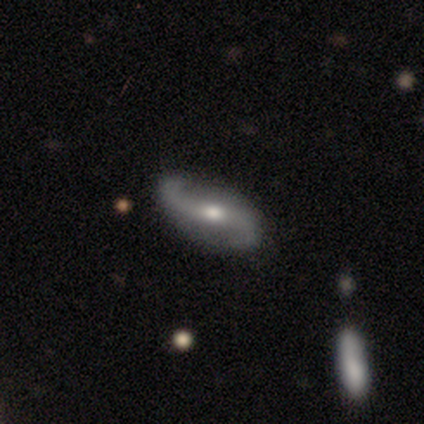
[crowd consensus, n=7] featured or disk 86%, star or artifact 14%, smooth 0%. Down the decision tree: edge-on disk — no (100%); bar — weak (50%); spiral arms — yes (100%); spiral arm count — 2 (100%); spiral winding — loose (83%); bulge size — moderate (50%); merging — none (100%).